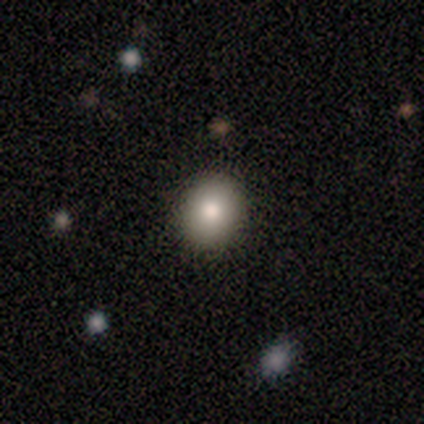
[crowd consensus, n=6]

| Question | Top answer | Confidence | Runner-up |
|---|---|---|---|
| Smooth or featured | smooth | 100% | — |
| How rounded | round | 50% | tied: in between (50%) |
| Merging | none | 100% | — |